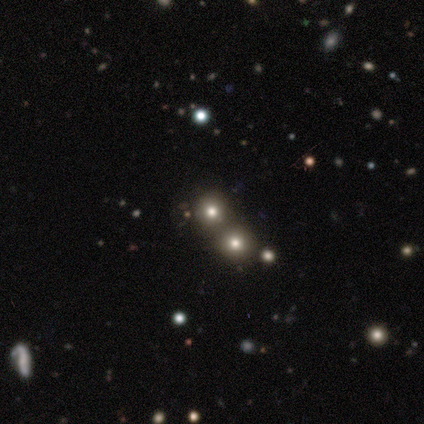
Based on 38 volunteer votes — Q: Smooth or featured?
A: smooth (61%); runner-up: star or artifact (32%)
Q: How rounded?
A: round (100%)
Q: Merging?
A: merger (77%)